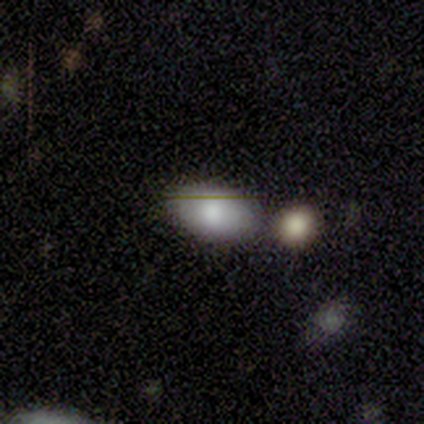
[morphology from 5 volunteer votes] type=smooth (80%); roundness=in between (100%); merging=none (60%).